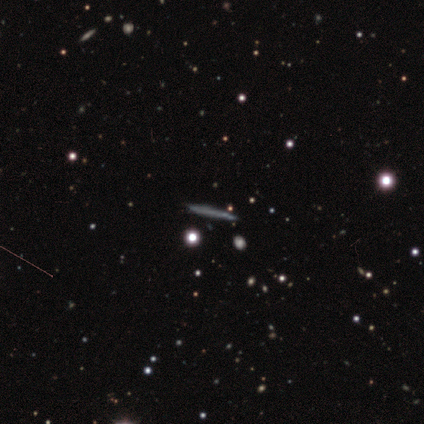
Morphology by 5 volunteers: Q: Smooth or featured?
A: featured or disk (60%); runner-up: star or artifact (40%)
Q: Edge-on disk?
A: yes (67%); runner-up: no (33%)
Q: Edge-on bulge?
A: none (100%)
Q: Merging?
A: none (100%)